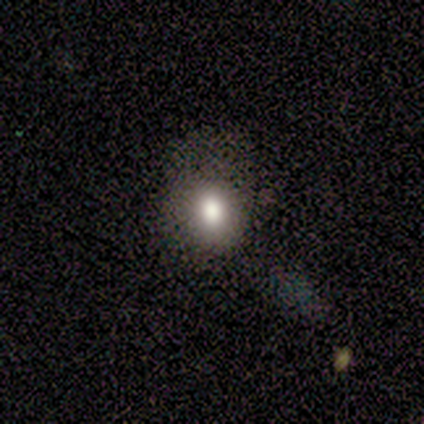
smooth_or_featured: smooth (p=1.00)
how_rounded: round (p=0.75) [alt: in between p=0.25]
merging: none (p=0.50) [alt: minor disturbance p=0.25]